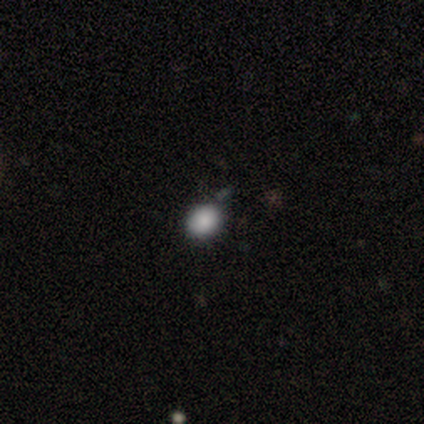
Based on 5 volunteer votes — Smooth or featured?
  - smooth: 80% *
  - star or artifact: 20%
  - featured or disk: 0%
How rounded?
  - round: 50% * (tied)
  - in between: 50% * (tied)
  - cigar-shaped: 0%
Merging?
  - none: 100% *
  - minor disturbance: 0%
  - major disturbance: 0%
  - merger: 0%